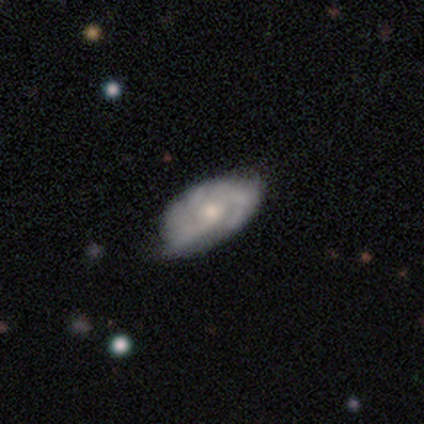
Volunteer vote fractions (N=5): Overall: featured or disk (60%; smooth 40%). Edge-on disk: no (100%). Bar: no (100%). Spiral arms: yes (100%). Spiral arm count: 2 (67%; 3 33%). Spiral winding: tight (67%; medium 33%). Bulge size: large (33%, tied with moderate and small). Merging: none (60%; minor disturbance 40%).